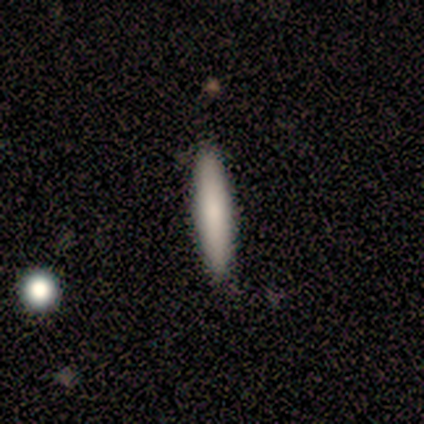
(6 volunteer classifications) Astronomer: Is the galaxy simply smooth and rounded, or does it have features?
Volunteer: smooth — 100%.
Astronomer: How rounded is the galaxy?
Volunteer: cigar-shaped — 100%.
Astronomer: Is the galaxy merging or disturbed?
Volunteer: none — 100%.